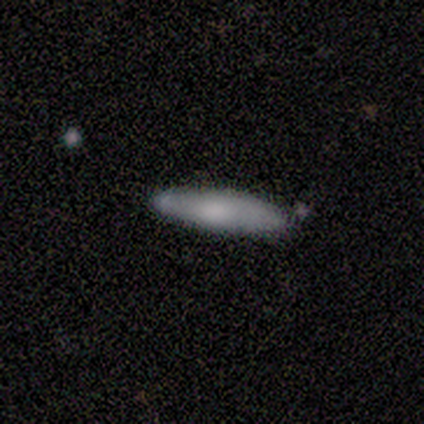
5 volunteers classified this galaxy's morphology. Q: Smooth or featured?
A: smooth (60%); runner-up: featured or disk (20%)
Q: How rounded?
A: cigar-shaped (67%); runner-up: in between (33%)
Q: Merging?
A: none (50%); tied with: minor disturbance (50%)